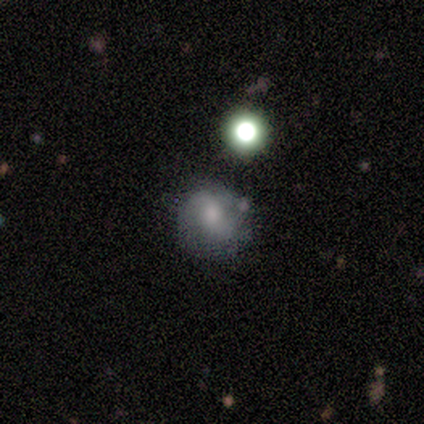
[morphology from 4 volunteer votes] Smooth or featured? smooth (75%)
How rounded? in between (67%)
Merging? none (67%)